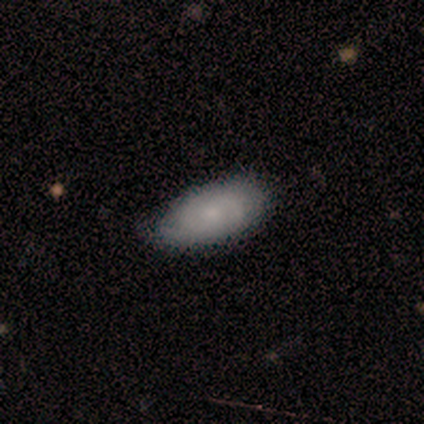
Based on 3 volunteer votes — This appears to be a smooth galaxy with no disk features (33%, tied with featured or disk and star or artifact) that is in between round and cigar-shaped (100%). Merging: minor disturbance (100%).